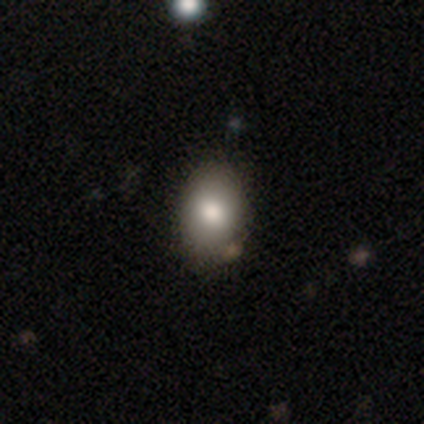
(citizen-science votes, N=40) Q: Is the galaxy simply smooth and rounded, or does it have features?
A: smooth — 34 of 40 (85%).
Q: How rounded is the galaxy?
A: in between — 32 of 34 (94%).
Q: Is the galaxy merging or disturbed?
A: none — 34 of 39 (87%).